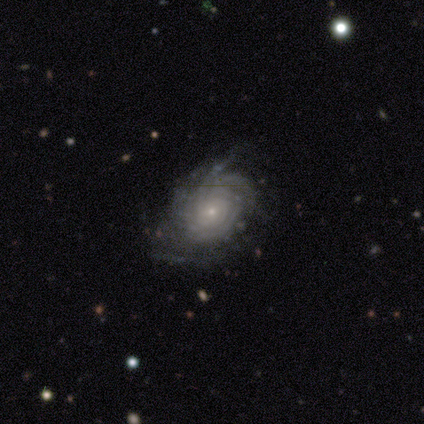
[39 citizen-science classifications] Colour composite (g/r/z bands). It shows a featured or disk galaxy (92%) with no bar (86%), tight (74%) spiral arms (97%) and a small central bulge (86%). Merging: none (57%).